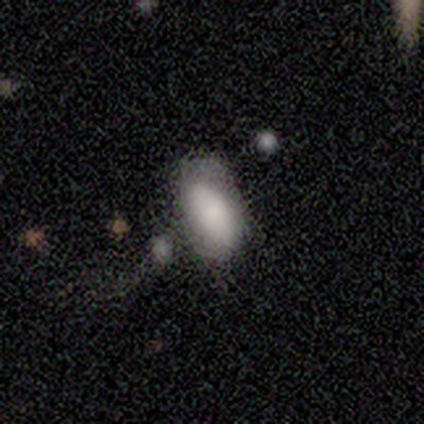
smooth-or-featured: smooth: 100% | featured or disk: 0% | star or artifact: 0%
  how-rounded: in between: 100% | round: 0% | cigar-shaped: 0%
  merging: major disturbance: 100% | none: 0% | minor disturbance: 0% | merger: 0%